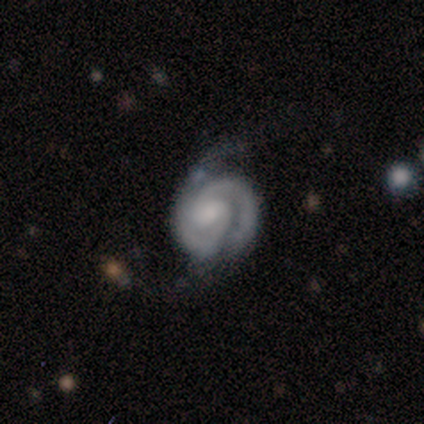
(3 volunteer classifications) This appears to be a featured or disk galaxy (100%) with no bar (67%), 2 (67%) tight (100%) spiral arms (100%) and a moderate central bulge (67%). Merging: none (67%).